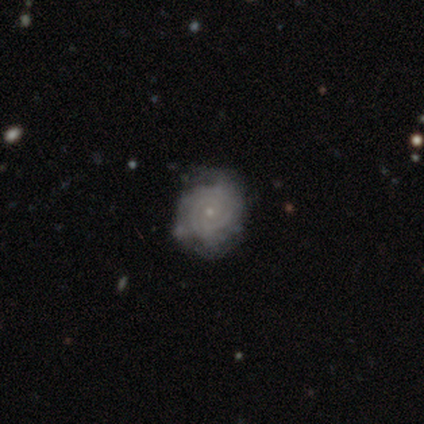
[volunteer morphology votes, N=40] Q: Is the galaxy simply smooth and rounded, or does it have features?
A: featured or disk — 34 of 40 (85%).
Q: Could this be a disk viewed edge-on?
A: no — 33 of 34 (97%).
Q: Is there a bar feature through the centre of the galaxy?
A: no — 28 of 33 (85%).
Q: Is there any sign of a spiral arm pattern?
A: yes — 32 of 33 (97%).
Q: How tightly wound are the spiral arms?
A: tight — 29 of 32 (91%).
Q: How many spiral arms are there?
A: can't tell — 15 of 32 (47%).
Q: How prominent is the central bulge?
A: small — 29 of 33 (88%).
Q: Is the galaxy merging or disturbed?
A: none — 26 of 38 (68%).